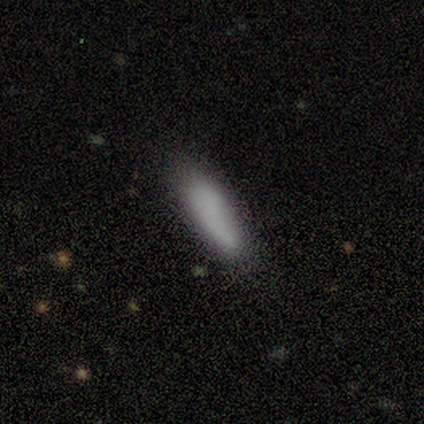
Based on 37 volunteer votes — A smooth galaxy with no disk features (92%) that is in between round and cigar-shaped (53%). Merging: none (60%).